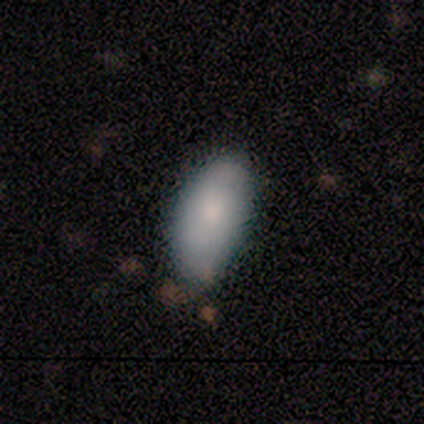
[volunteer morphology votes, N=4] Volunteers were most divided on "how rounded": in between: 75%, round: 25%, cigar-shaped: 0%. More confident: smooth or featured — smooth (100%); merging — none (75%).